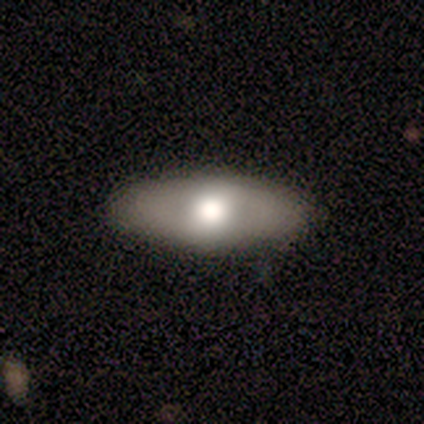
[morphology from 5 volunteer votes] Volunteers were most divided on "smooth or featured": featured or disk: 60%, smooth: 40%, star or artifact: 0%. More confident: bar — no (100%); spiral arms — no (100%); bulge size — large (100%); merging — none (100%); edge-on disk — no (67%).